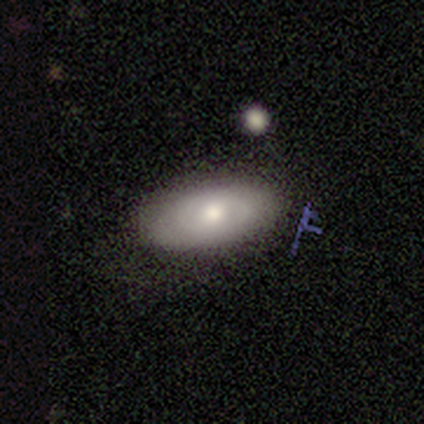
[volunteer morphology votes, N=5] smooth 40% (tied), featured or disk 40% (tied), star or artifact 20%. Down the decision tree: how rounded — in between (100%); merging — none (100%).